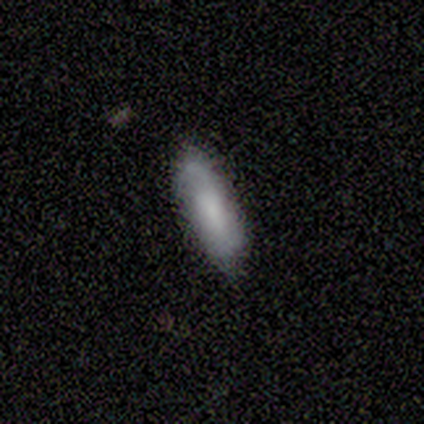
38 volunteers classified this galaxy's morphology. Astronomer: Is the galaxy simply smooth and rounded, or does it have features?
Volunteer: smooth — 66%.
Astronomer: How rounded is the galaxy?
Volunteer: in between — 48%, tied with cigar-shaped at 48%.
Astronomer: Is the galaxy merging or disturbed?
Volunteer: none — 86%.